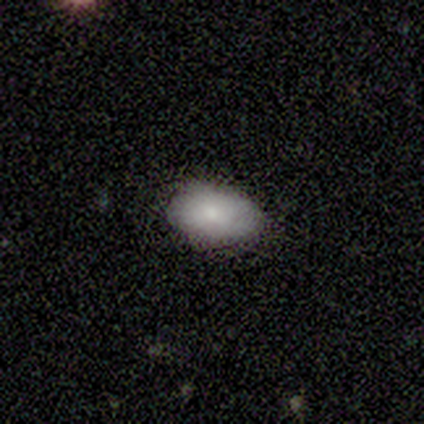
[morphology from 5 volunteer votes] smooth-or-featured: smooth: 100% | featured or disk: 0% | star or artifact: 0%
  how-rounded: in between: 100% | round: 0% | cigar-shaped: 0%
  merging: none: 80% | minor disturbance: 20% | major disturbance: 0% | merger: 0%